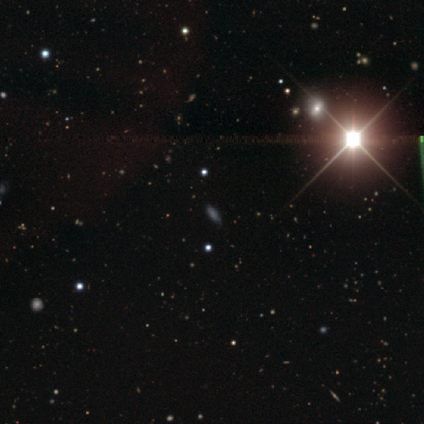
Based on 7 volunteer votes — Smooth or featured? star or artifact (86%)